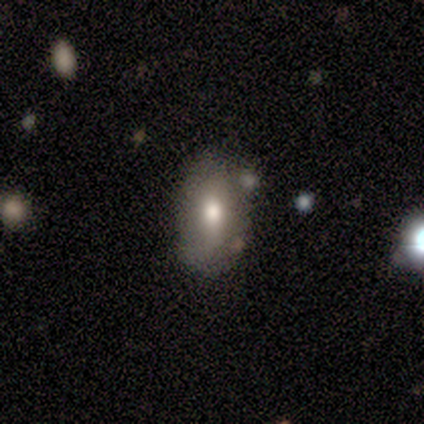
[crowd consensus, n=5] Overall: smooth (80%). How rounded: in between (100%). Merging: none (80%).